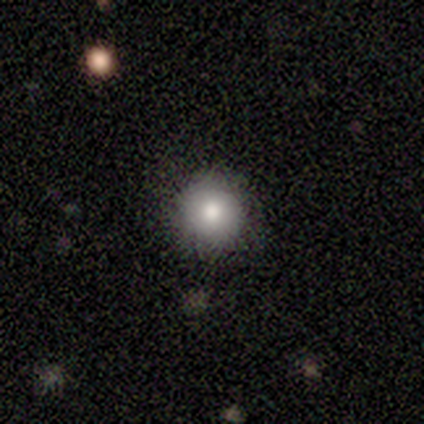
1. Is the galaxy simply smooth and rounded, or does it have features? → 100% smooth, 0% featured or disk, 0% star or artifact.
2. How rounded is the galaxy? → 80% round, 20% in between, 0% cigar-shaped.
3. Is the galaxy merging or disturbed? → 80% none, 20% minor disturbance, 0% major disturbance, 0% merger.